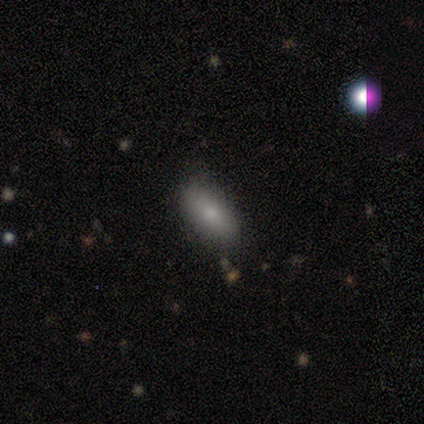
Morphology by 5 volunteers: Smooth or featured: smooth — 100%
How rounded: in between — 100%
Merging: none — 60% (minor disturbance — 40%)